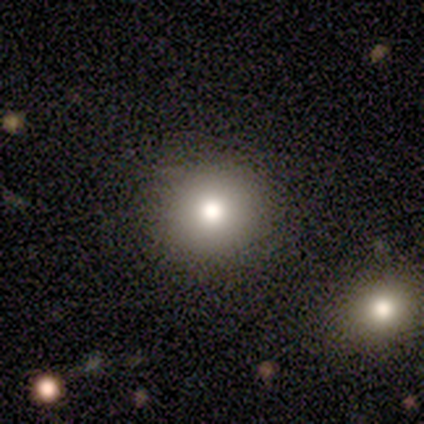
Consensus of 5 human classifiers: A smooth galaxy with no disk features (60%) that is round (100%). Merging: none (75%).